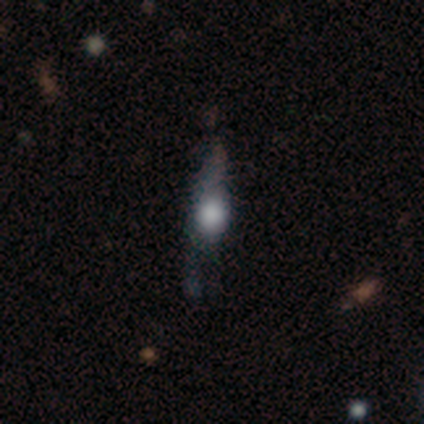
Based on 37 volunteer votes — Smooth or featured: smooth — 46% (featured or disk — 38%)
How rounded: cigar-shaped — 53% (in between — 29%)
Merging: minor disturbance — 39% (major disturbance — 35%)